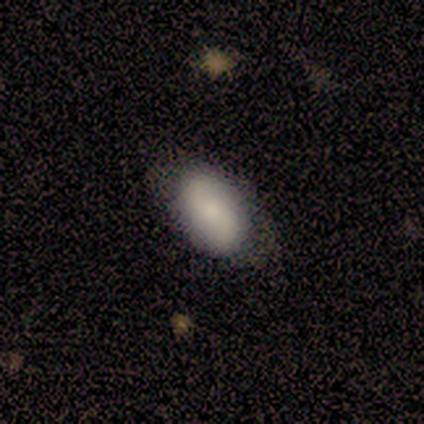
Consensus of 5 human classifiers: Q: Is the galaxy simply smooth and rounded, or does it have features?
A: smooth — 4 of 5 (80%).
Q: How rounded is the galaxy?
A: in between — 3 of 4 (75%).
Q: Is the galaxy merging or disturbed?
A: none — 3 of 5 (60%).